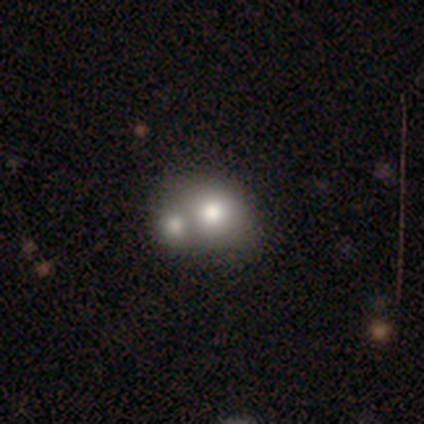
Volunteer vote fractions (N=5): Smooth or featured? smooth (80%)
How rounded? round (50%, tied with in between)
Merging? merger (75%)